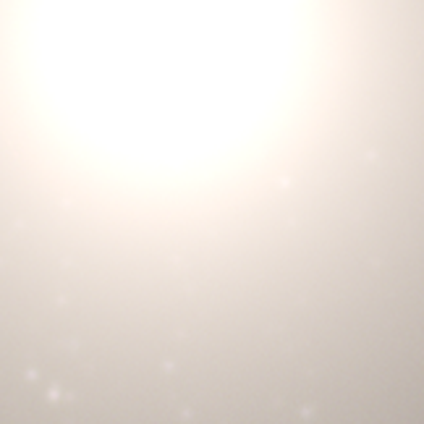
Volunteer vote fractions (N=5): Smooth or featured? star or artifact (100%)